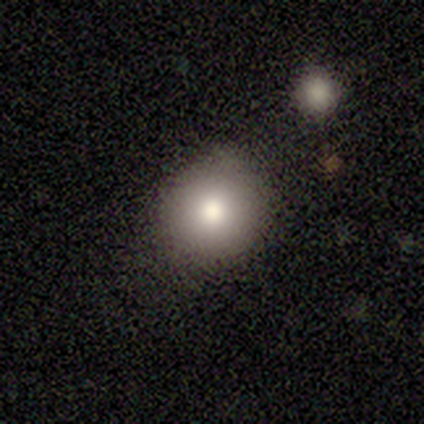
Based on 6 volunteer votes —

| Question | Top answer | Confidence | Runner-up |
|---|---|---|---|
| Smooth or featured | smooth | 67% | featured or disk (17%) |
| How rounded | round | 100% | — |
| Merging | none | 60% | minor disturbance (40%) |